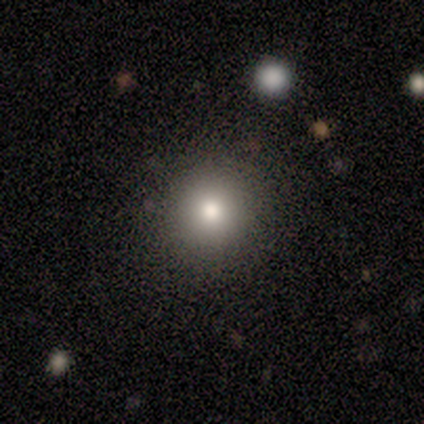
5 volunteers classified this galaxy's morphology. smooth-or-featured: smooth: 60% | star or artifact: 40% | featured or disk: 0%
  how-rounded: round: 100% | in between: 0% | cigar-shaped: 0%
  merging: none: 100% | minor disturbance: 0% | major disturbance: 0% | merger: 0%